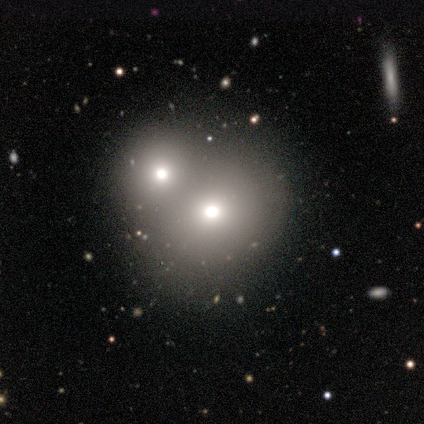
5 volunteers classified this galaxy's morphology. This appears to be a featured or disk galaxy (40%, tied with star or artifact) with no bar (100%), no spiral arms (100%) and a moderate central bulge (100%). Merging: none (67%).